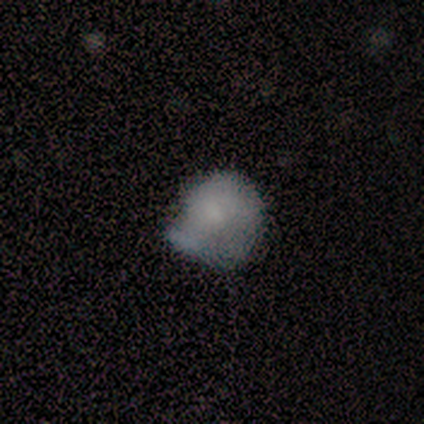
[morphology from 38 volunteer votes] type=smooth (66%); roundness=round (64%); merging=none (44%).